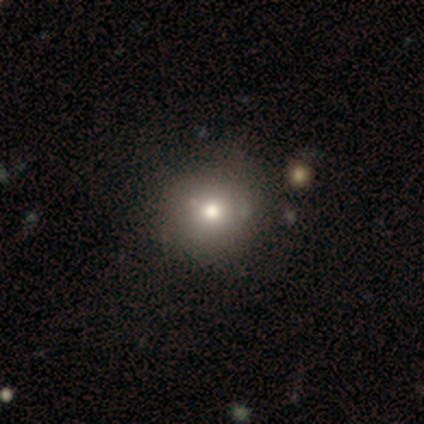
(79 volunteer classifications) Overall: smooth (80%). How rounded: round (94%). Merging: none (44%; minor disturbance 5%).